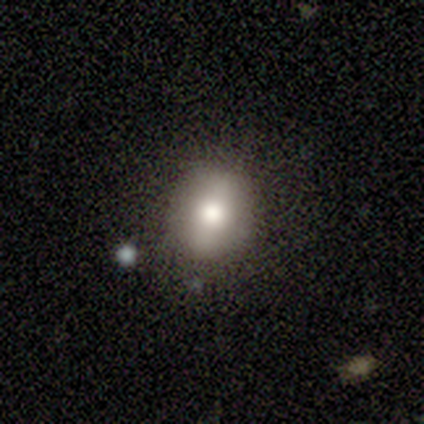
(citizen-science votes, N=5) Q: Smooth or featured?
A: smooth (100%)
Q: How rounded?
A: in between (60%); runner-up: round (40%)
Q: Merging?
A: none (80%); runner-up: minor disturbance (20%)